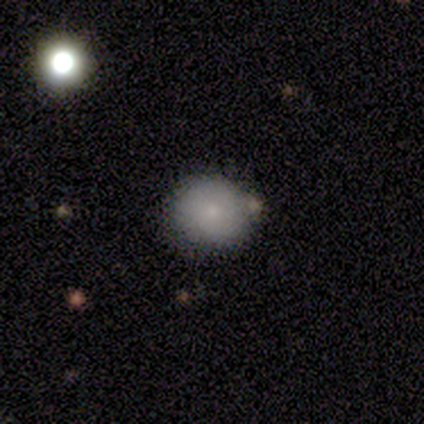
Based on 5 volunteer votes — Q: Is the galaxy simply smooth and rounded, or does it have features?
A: smooth — 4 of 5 (80%).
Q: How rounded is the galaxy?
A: round — 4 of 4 (100%).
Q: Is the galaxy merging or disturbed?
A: none — 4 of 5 (80%).